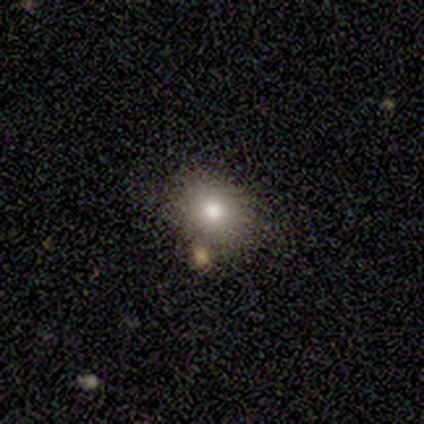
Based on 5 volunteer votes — Morphology: type=smooth (100%); roundness=in between (60%); merging=none (80%).